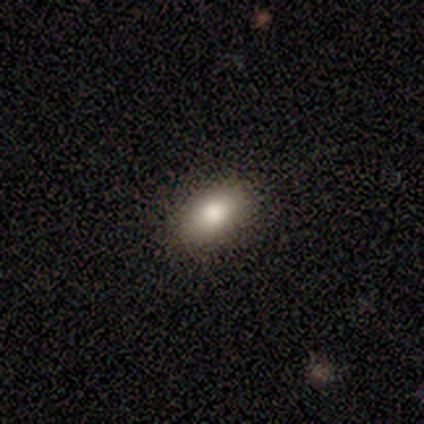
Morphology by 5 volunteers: Smooth or featured? smooth (60%)
How rounded? in between (100%)
Merging? none (80%)